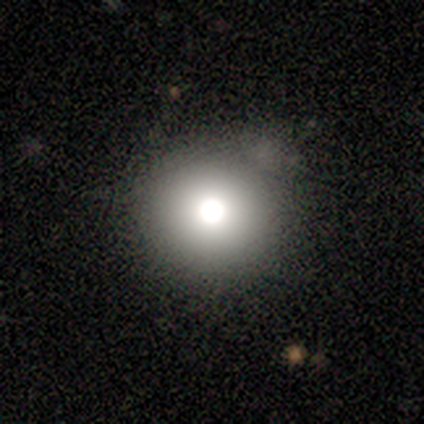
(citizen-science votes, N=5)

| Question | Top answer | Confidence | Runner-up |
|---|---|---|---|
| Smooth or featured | smooth | 40% | tied: featured or disk (40%) |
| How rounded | round | 100% | — |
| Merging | none | 50% | minor disturbance (25%) |